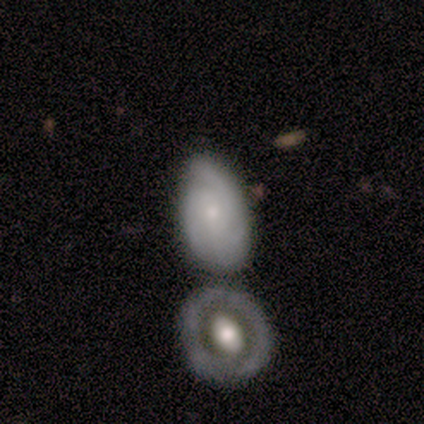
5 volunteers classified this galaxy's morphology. A smooth galaxy with no disk features (60%) that is in between round and cigar-shaped (100%). Merging: none (60%).